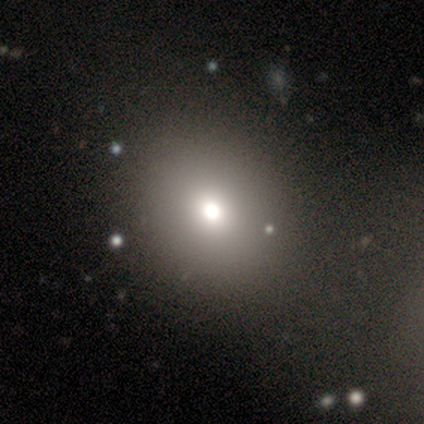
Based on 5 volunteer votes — Overall: smooth (100%). How rounded: in between (60%; round 40%). Merging: none (80%).